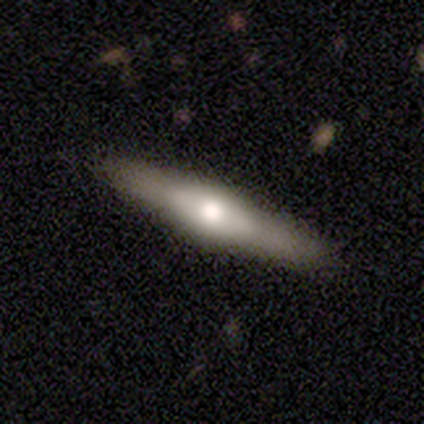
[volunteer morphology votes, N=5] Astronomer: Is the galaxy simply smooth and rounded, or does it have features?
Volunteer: featured or disk — 60%.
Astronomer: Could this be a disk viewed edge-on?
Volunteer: yes — 100%.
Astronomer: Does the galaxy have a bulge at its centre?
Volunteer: rounded — 67%.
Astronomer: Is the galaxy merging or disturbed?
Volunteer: none — 100%.